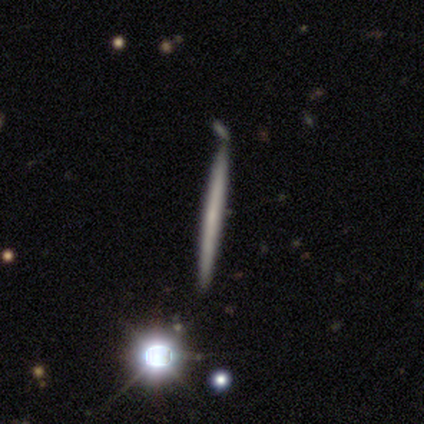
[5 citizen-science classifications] Volunteers were most divided on "smooth or featured": featured or disk: 60%, smooth: 40%, star or artifact: 0%. More confident: edge-on disk — yes (100%); edge-on bulge — none (100%); merging — none (60%).